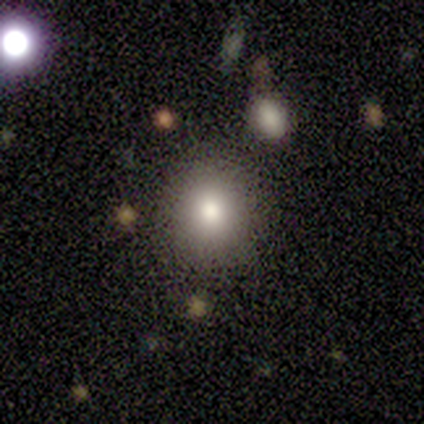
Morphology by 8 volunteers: Overall: smooth (75%). How rounded: round (83%). Merging: none (100%).